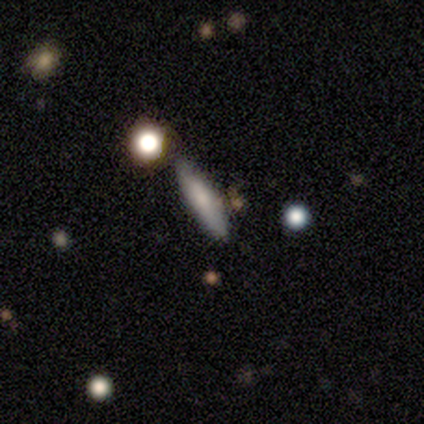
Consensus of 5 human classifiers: This appears to be a smooth galaxy with no disk features (100%) that is cigar-shaped (100%). Merging: none (80%).